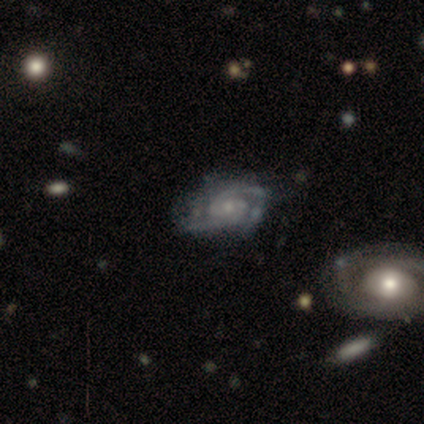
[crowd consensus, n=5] Smooth or featured? featured or disk (100%)
Edge-on disk? no (100%)
Bar? no (80%)
Spiral arms? yes (100%)
Spiral winding? medium (60%)
Spiral arm count? 2 (100%)
Bulge size? small (80%)
Merging? none (60%)